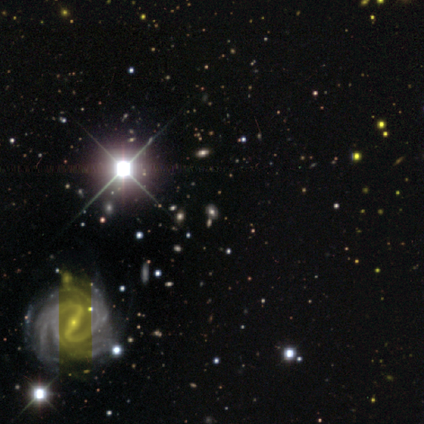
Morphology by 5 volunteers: smooth_or_featured: smooth (p=0.40) [tied with: featured or disk p=0.40]
how_rounded: in between (p=1.00)
merging: none (p=0.75) [alt: minor disturbance p=0.25]